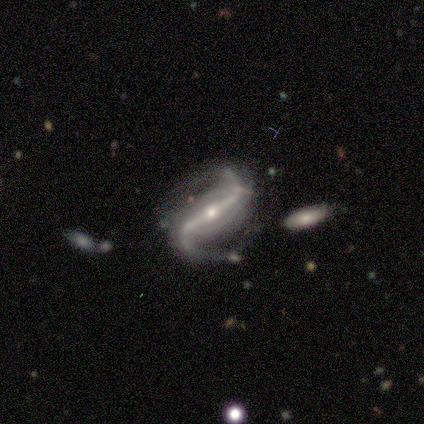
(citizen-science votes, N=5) smooth_or_featured: featured or disk (p=0.80) [alt: smooth p=0.20]
disk_edge_on: no (p=1.00)
bar: strong (p=1.00)
has_spiral_arms: yes (p=1.00)
spiral_winding: loose (p=1.00)
spiral_arm_count: 2 (p=1.00)
bulge_size: moderate (p=0.50) [tied with: small p=0.50]
merging: major disturbance (p=0.40) [alt: none p=0.20]